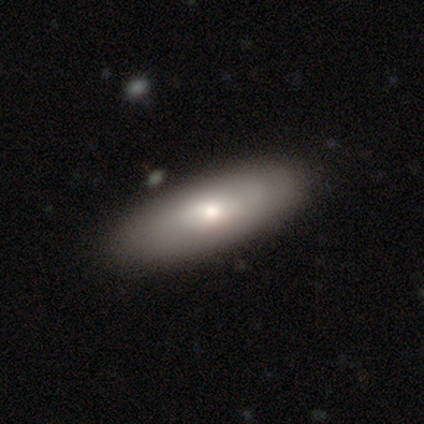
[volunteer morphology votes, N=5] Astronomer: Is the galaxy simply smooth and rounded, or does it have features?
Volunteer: featured or disk — 80%.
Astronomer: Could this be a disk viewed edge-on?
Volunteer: yes — 50%, tied with no at 50%.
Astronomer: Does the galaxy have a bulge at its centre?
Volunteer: boxy — 50%, tied with rounded at 50%.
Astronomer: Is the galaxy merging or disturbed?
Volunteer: none — 80%.